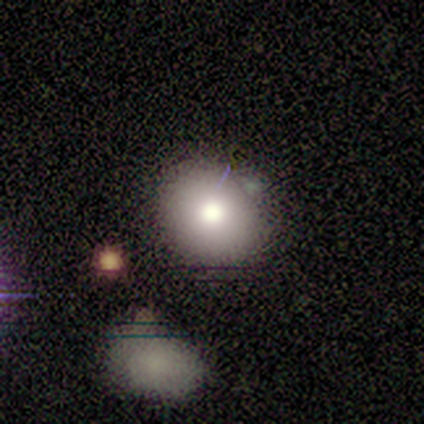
Smooth or featured?
  - smooth: 50% * (tied)
  - featured or disk: 50% * (tied)
  - star or artifact: 0%
How rounded?
  - round: 100% *
  - in between: 0%
  - cigar-shaped: 0%
Merging?
  - minor disturbance: 100% *
  - none: 0%
  - major disturbance: 0%
  - merger: 0%